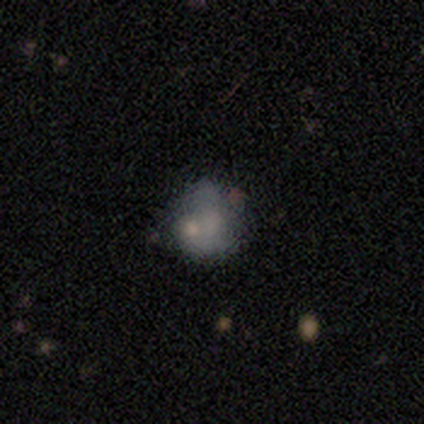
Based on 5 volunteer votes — Smooth or featured?
  - smooth: 100% *
  - featured or disk: 0%
  - star or artifact: 0%
How rounded?
  - round: 60% *
  - in between: 40%
  - cigar-shaped: 0%
Merging?
  - none: 40% * (tied)
  - minor disturbance: 40% * (tied)
  - major disturbance: 20%
  - merger: 0%